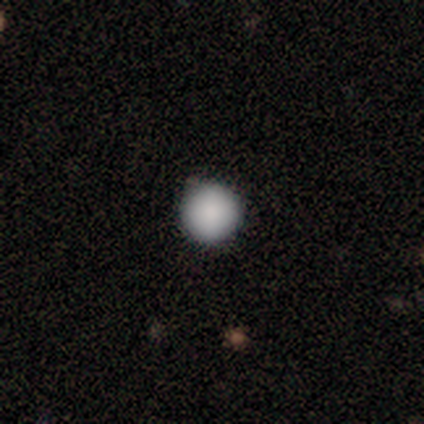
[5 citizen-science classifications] Q: Smooth or featured?
A: smooth (100%)
Q: How rounded?
A: round (100%)
Q: Merging?
A: none (100%)